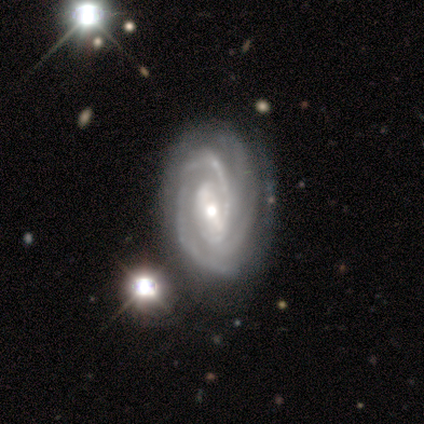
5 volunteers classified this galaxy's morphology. Volunteers were most divided on "bar" (2-way tie): weak: 50%, no: 50%, strong: 0%; "bulge size" (2-way tie): moderate: 50%, small: 50%, dominant: 0%, large: 0%, none: 0%. More confident: smooth or featured — featured or disk (100%); spiral arms — yes (100%); merging — none (100%); edge-on disk — no (80%); spiral winding — tight (75%); spiral arm count — 3 (50%).